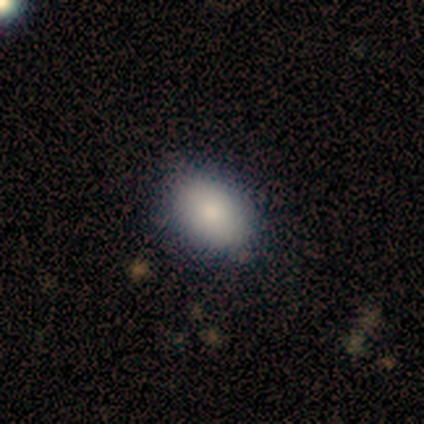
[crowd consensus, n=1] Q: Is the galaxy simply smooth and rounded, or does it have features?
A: smooth — 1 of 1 (100%).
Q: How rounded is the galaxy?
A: in between — 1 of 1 (100%).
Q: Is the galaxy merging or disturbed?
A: minor disturbance — 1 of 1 (100%).